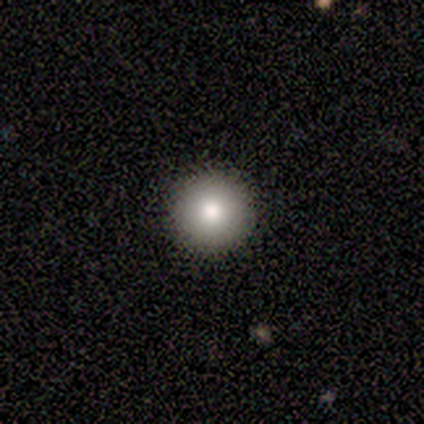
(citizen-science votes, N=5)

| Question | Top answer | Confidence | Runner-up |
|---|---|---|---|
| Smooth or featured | smooth | 80% | star or artifact (20%) |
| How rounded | round | 100% | — |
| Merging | none | 100% | — |